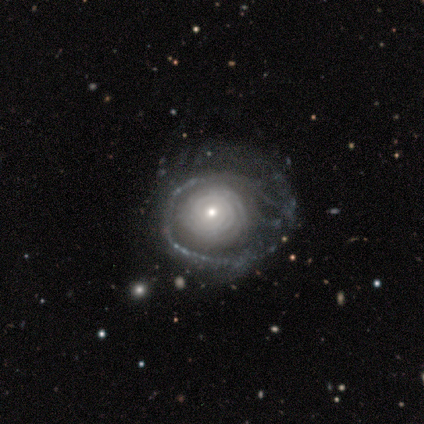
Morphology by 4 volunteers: smooth_or_featured: featured or disk (p=1.00)
disk_edge_on: no (p=1.00)
bar: no (p=0.75) [alt: strong p=0.25]
has_spiral_arms: yes (p=0.50) [tied with: no p=0.50]
spiral_winding: tight (p=0.50) [tied with: loose p=0.50]
spiral_arm_count: 3 (p=0.50) [tied with: more than 4 p=0.50]
bulge_size: moderate (p=0.50) [tied with: small p=0.50]
merging: minor disturbance (p=0.50) [alt: none p=0.25]